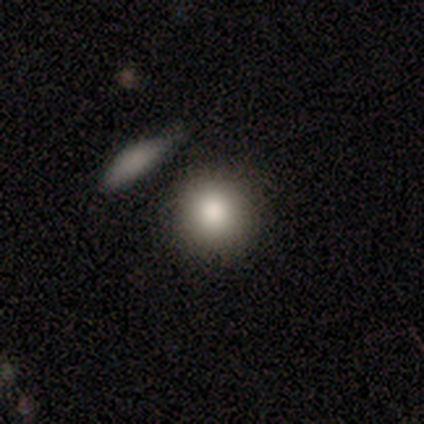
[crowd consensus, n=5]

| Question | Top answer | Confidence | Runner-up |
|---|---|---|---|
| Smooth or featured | smooth | 100% | — |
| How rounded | round | 80% | in between (20%) |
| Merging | none | 100% | — |